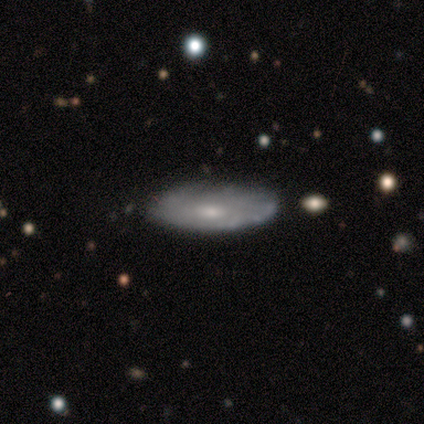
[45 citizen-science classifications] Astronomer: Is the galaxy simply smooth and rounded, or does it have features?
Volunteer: featured or disk — 67%.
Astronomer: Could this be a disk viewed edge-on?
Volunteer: no — 90%.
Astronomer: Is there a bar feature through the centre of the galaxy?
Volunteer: no — 78%.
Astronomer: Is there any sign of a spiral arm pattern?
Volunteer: yes — 52% (runner-up: no, 48%).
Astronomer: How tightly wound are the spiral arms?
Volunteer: tight — 86%.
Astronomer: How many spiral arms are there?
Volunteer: can't tell — 86%.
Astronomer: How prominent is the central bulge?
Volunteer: small — 48% (runner-up: moderate, 44%).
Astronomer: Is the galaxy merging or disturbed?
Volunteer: none — 86%.